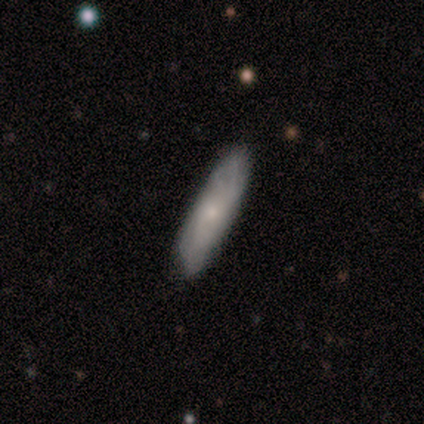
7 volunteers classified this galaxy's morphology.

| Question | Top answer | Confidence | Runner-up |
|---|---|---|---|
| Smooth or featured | featured or disk | 71% | smooth (29%) |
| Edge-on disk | yes | 60% | no (40%) |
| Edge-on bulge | none | 67% | rounded (33%) |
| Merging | none | 86% | minor disturbance (14%) |